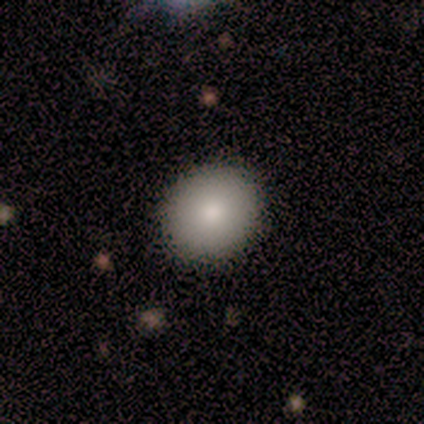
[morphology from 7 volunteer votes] Q: Smooth or featured?
A: smooth (86%); runner-up: featured or disk (14%)
Q: How rounded?
A: round (83%); runner-up: in between (17%)
Q: Merging?
A: none (100%)